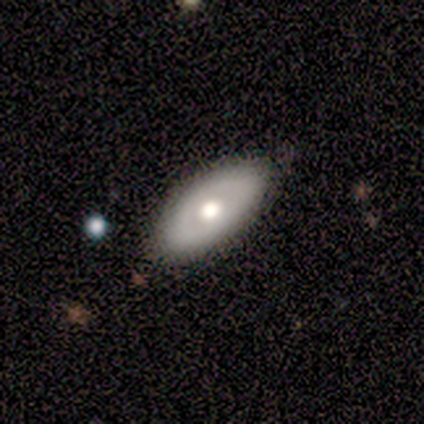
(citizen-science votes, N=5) This appears to be a smooth galaxy with no disk features (60%) that is in between round and cigar-shaped (67%). Merging: none (100%).